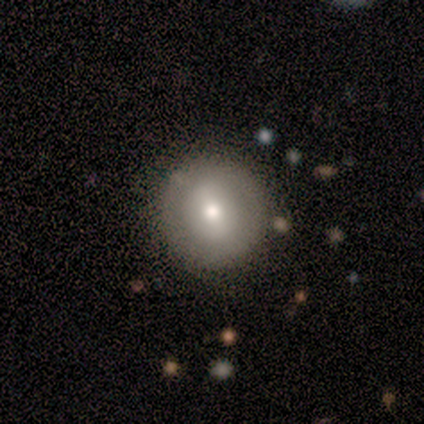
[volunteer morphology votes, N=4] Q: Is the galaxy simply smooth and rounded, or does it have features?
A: smooth — 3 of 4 (75%).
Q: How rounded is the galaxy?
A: round — 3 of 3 (100%).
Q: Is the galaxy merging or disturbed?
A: none — 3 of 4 (75%).